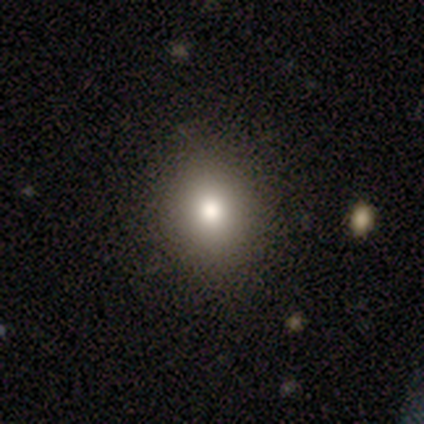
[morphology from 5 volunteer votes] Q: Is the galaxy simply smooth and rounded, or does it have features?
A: smooth — 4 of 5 (80%).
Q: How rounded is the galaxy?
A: round — 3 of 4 (75%).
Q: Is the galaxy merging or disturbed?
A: none — 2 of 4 (50%).